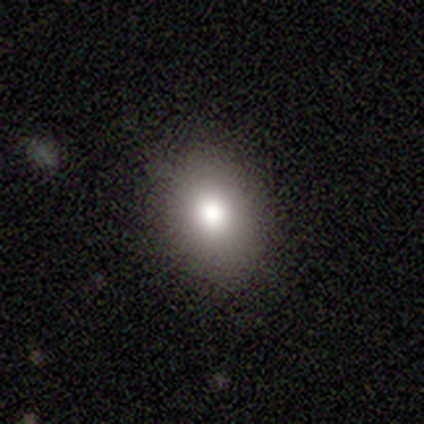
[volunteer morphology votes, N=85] smooth 81%, star or artifact 13%, featured or disk 6%. Down the decision tree: how rounded — in between (70%); merging — none (81%).